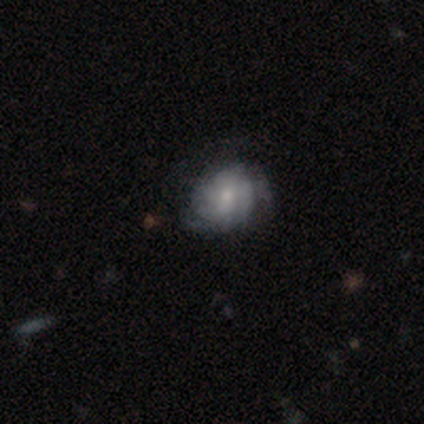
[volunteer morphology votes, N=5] Smooth or featured? featured or disk (60%)
Edge-on disk? no (100%)
Bar? no (67%)
Spiral arms? yes (67%)
Spiral winding? tight (50%, tied with loose)
Spiral arm count? 3 (100%)
Bulge size? moderate (67%)
Merging? none (60%)